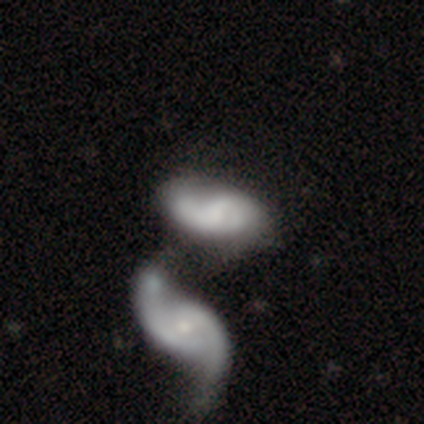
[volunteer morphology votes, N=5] Smooth or featured? 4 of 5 (80%) said featured or disk. Edge-on disk? 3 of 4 (75%) said no. Bar? 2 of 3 (67%) said weak. Spiral arms? 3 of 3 (100%) said yes. Spiral winding? 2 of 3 (67%) said loose. Spiral arm count? 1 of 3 (33%, tied with 2 and can't tell) said 1. Bulge size? 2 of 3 (67%) said small. Merging? 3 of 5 (60%) said merger.